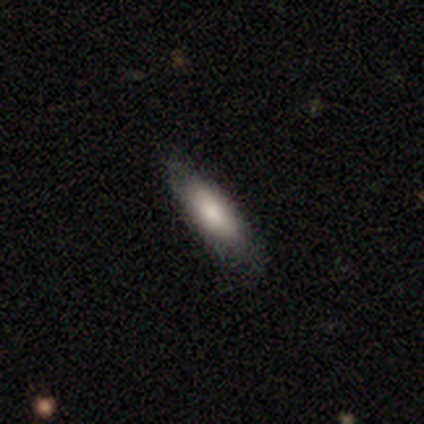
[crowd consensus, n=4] Morphology: type=smooth (100%); roundness=in between (50%, tied with cigar-shaped); merging=minor disturbance (75%).